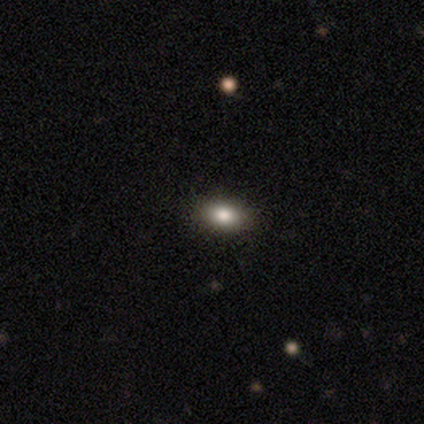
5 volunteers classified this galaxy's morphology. A smooth galaxy with no disk features (80%) that is in between round and cigar-shaped (100%).

Vote fractions:
- Smooth or featured? smooth: 80% / featured or disk: 20% / star or artifact: 0%
- How rounded? in between: 100% / round: 0% / cigar-shaped: 0%
- Merging? none: 80% / merger: 20% / minor disturbance: 0% / major disturbance: 0%